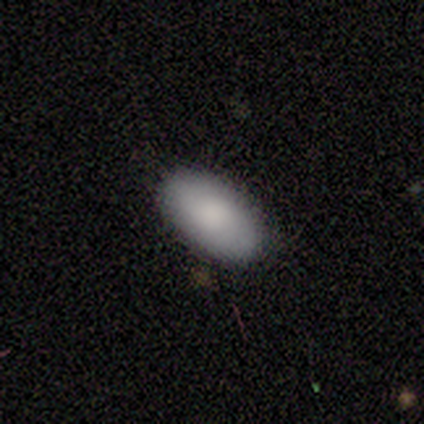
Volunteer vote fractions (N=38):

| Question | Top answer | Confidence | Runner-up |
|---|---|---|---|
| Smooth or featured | smooth | 87% | featured or disk (8%) |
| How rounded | in between | 97% | cigar-shaped (3%) |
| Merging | none | 92% | minor disturbance (6%) |